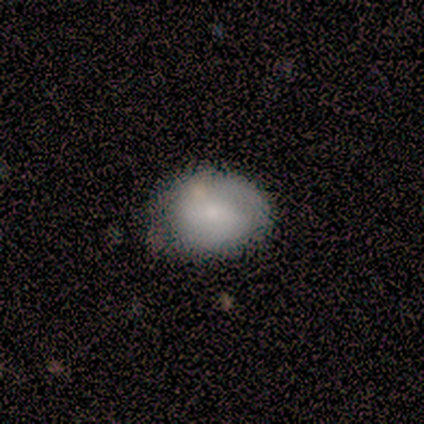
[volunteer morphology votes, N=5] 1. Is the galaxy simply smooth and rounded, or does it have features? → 60% featured or disk, 40% smooth, 0% star or artifact.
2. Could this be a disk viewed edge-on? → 100% no, 0% yes.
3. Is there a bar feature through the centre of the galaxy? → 33% strong (tied), 33% weak (tied), 33% no (tied).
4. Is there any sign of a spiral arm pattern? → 100% yes, 0% no.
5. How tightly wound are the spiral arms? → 100% medium, 0% tight, 0% loose.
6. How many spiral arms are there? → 67% 2, 33% 3, 0% 1, 0% 4, 0% more than 4, 0% can't tell.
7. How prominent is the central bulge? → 67% moderate, 33% small, 0% dominant, 0% large, 0% none.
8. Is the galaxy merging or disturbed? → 60% none, 40% minor disturbance, 0% major disturbance, 0% merger.